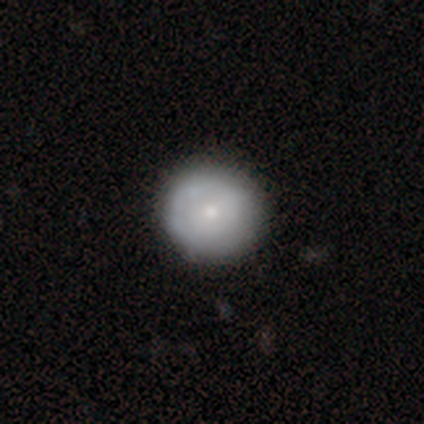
This appears to be a smooth galaxy with no disk features (68%) that is round (100%). Merging: none (97%).